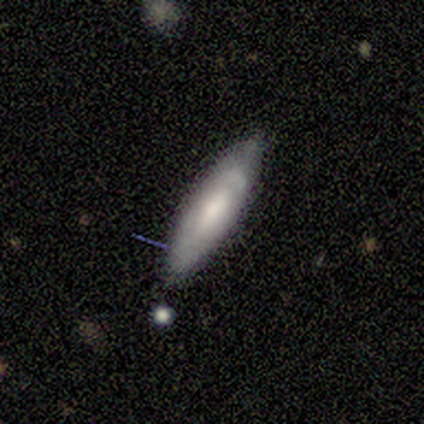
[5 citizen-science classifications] smooth_or_featured: smooth (p=0.80) [alt: featured or disk p=0.20]
how_rounded: in between (p=0.75) [alt: cigar-shaped p=0.25]
merging: none (p=0.80) [alt: minor disturbance p=0.20]